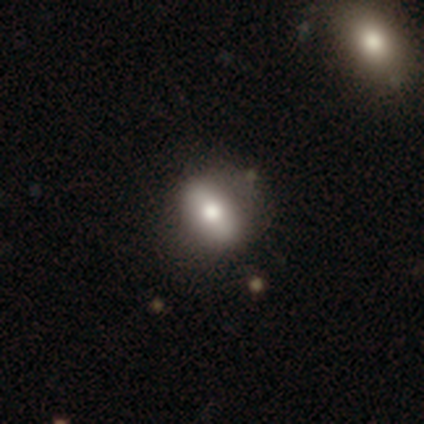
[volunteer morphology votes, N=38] Overall: smooth (66%). How rounded: in between (68%). Merging: none (67%).